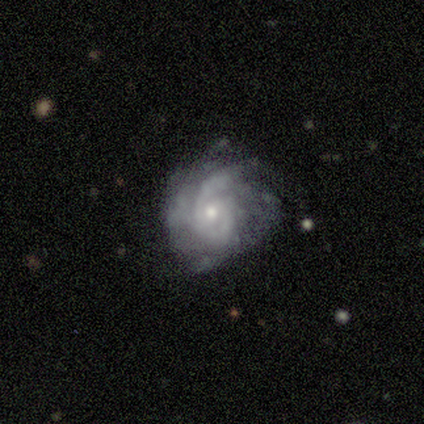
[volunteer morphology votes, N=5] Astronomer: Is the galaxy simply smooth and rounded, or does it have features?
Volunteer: featured or disk — 100%.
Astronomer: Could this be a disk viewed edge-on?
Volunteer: no — 80%.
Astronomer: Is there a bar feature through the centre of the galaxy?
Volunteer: no — 100%.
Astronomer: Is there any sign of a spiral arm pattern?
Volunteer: yes — 100%.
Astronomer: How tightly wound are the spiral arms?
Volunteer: tight — 50%, tied with medium at 50%.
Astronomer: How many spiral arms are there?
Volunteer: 2 — 50%.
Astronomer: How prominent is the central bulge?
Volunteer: moderate — 50%, tied with small at 50%.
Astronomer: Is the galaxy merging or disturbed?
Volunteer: none — 40%, tied with merger at 40%.